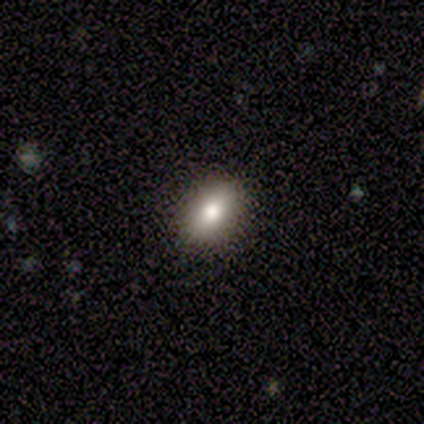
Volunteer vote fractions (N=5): Overall: smooth (60%; star or artifact 40%). How rounded: in between (67%; round 33%). Merging: none (100%).